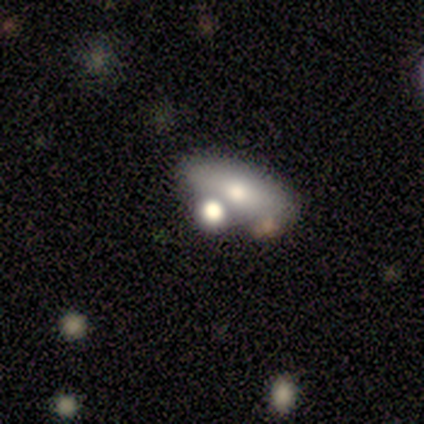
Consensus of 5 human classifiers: Smooth or featured: smooth — 60% (featured or disk — 40%)
How rounded: in between — 100%
Merging: merger — 60% (none — 20%)